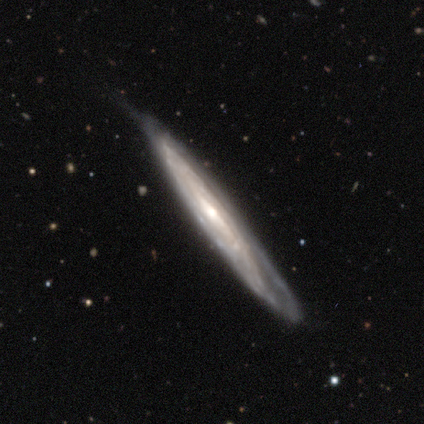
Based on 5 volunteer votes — This is clearly a featured or disk galaxy (80%). It is possibly viewed edge-on (50%, tied with no). Edge-on bulge: possibly boxy (50%, tied with none). Merging: clearly none (80%).